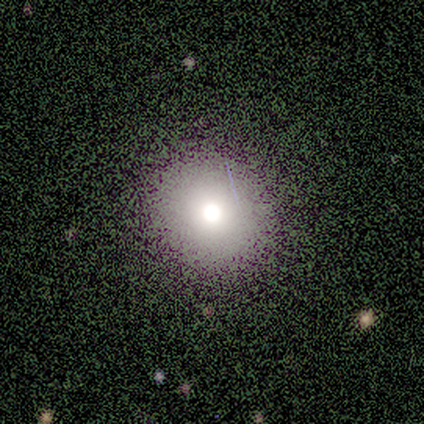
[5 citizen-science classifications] smooth_or_featured: smooth (p=0.60) [alt: star or artifact p=0.40]
how_rounded: round (p=0.67) [alt: in between p=0.33]
merging: none (p=1.00)